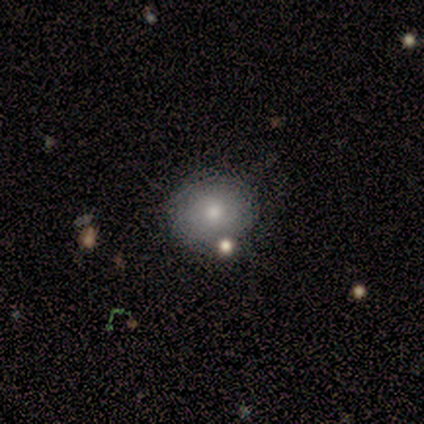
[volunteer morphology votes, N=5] smooth-or-featured: smooth: 80% | featured or disk: 20% | star or artifact: 0%
  how-rounded: round: 100% | in between: 0% | cigar-shaped: 0%
  merging: none: 100% | minor disturbance: 0% | major disturbance: 0% | merger: 0%